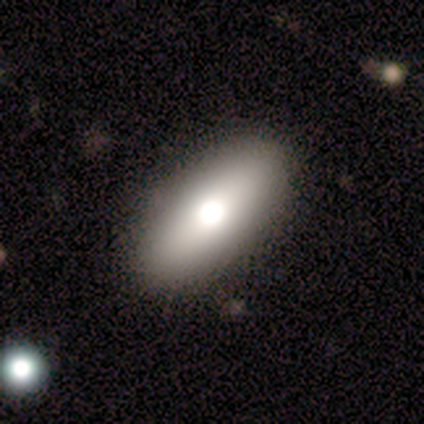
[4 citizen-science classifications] A smooth galaxy with no disk features (50%) that is in between round and cigar-shaped (100%). Merging: none (67%).